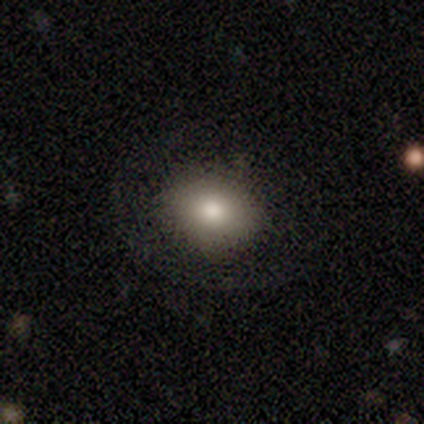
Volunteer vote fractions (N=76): Smooth or featured? smooth (80%)
How rounded? round (52%)
Merging? none (40%)